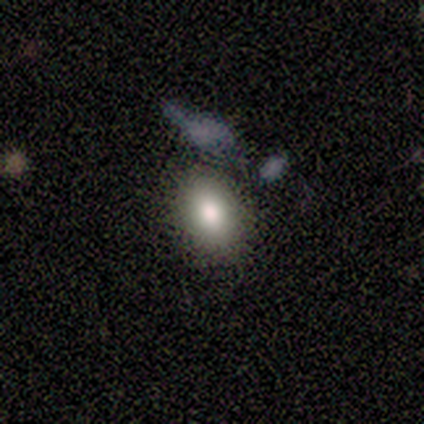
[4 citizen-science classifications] Smooth or featured? 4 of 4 (100%) said smooth. How rounded? 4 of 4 (100%) said in between. Merging? 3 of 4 (75%) said none.